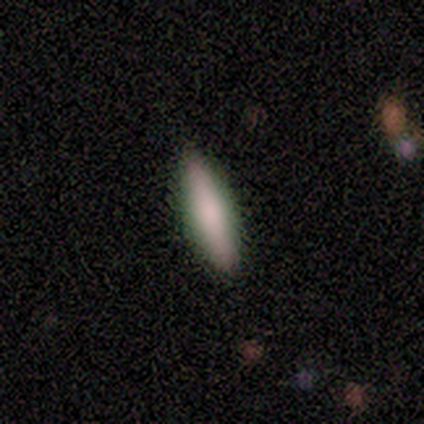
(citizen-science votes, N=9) Volunteers were most divided on "smooth or featured": smooth: 89%, featured or disk: 11%, star or artifact: 0%. More confident: how rounded — cigar-shaped (100%); merging — none (100%).